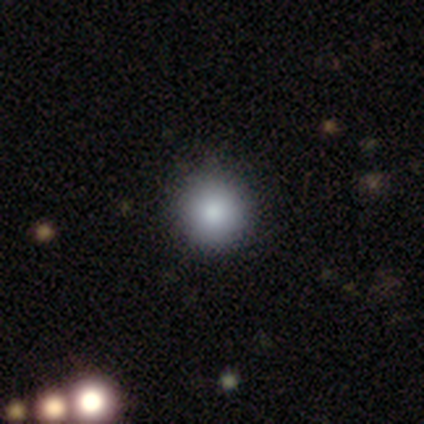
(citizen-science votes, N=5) Smooth or featured? 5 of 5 (100%) said smooth. How rounded? 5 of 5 (100%) said round. Merging? 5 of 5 (100%) said none.